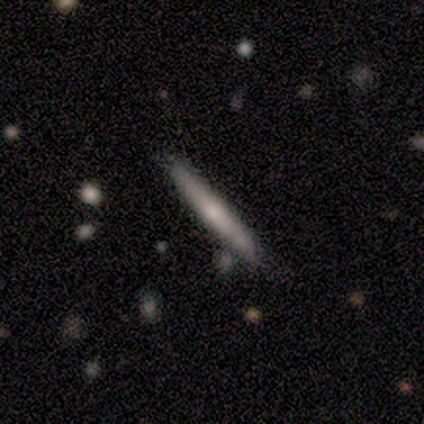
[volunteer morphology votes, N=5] Overall: featured or disk (60%; smooth 40%). Edge-on disk: yes (100%). Edge-on bulge: rounded (67%; none 33%). Merging: none (100%).